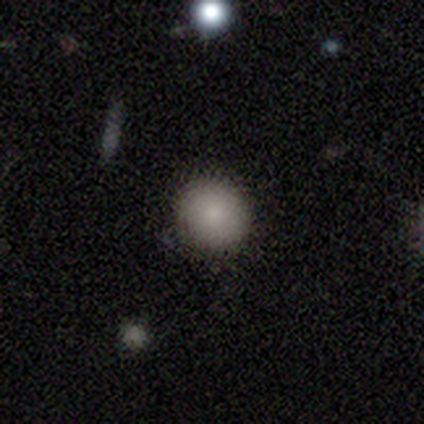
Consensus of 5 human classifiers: Morphology: type=smooth (80%); roundness=round (100%); merging=none (100%).